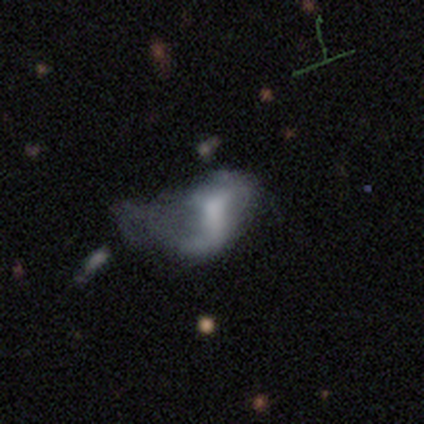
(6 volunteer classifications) featured or disk 67%, smooth 33%, star or artifact 0%. Down the decision tree: edge-on disk — no (100%); bar — weak (50%, tied with no); spiral arms — yes (75%); spiral arm count — 2 (100%); spiral winding — loose (100%); bulge size — none (50%); merging — major disturbance (67%).